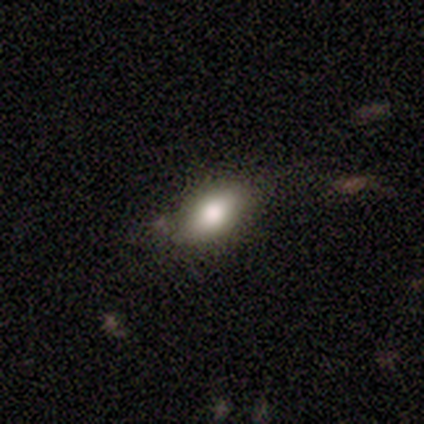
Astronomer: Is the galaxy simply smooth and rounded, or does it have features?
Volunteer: smooth — 100%.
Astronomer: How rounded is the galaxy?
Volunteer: in between — 100%.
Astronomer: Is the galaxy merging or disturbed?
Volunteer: none — 83%.